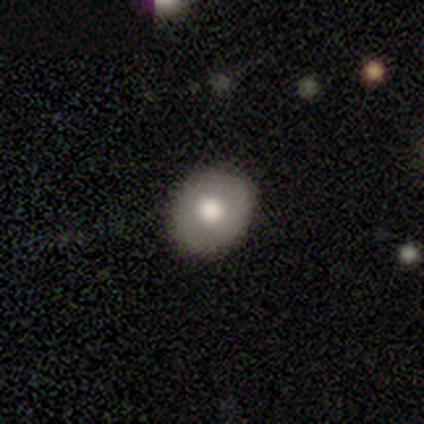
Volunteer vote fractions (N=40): Morphology: type=smooth (52%); roundness=round (81%); merging=none (91%).